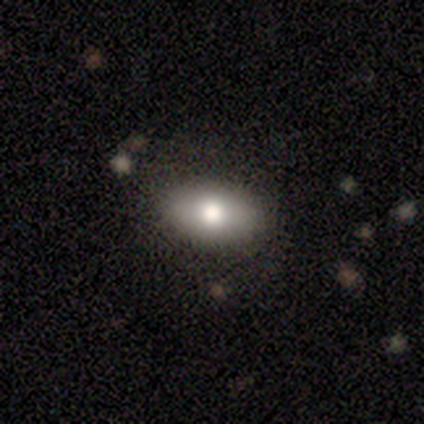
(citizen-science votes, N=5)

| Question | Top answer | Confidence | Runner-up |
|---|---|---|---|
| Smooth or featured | smooth | 80% | featured or disk (20%) |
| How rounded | in between | 100% | — |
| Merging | none | 100% | — |